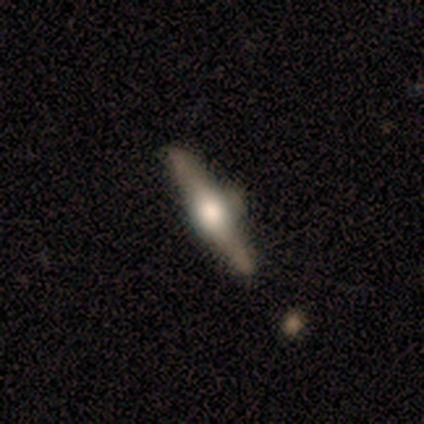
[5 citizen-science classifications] A featured or disk galaxy (80%) viewed edge-on (75%) with a rounded central bulge (100%). Merging: none (60%).